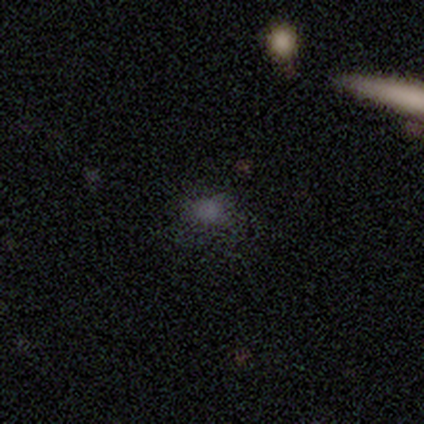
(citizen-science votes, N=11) This is clearly a smooth galaxy (82%). How rounded: possibly in between (56%). Merging: clearly none (90%).